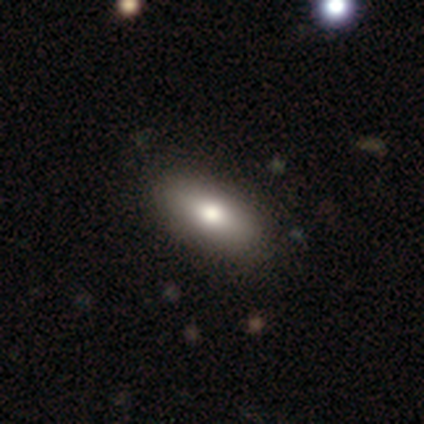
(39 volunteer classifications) This appears to be a smooth galaxy with no disk features (85%) that is in between round and cigar-shaped (91%). Merging: none (62%).